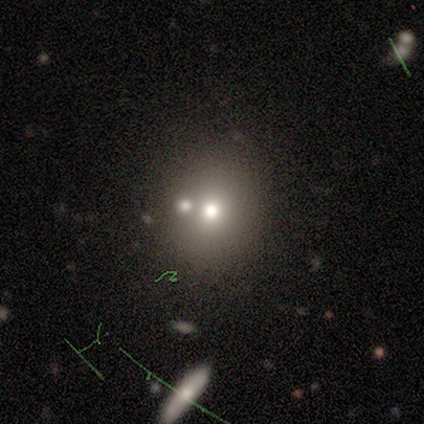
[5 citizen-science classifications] A smooth galaxy with no disk features (100%) that is round (60%).

Vote fractions:
- Smooth or featured? smooth: 100% / featured or disk: 0% / star or artifact: 0%
- How rounded? round: 60% / in between: 40% / cigar-shaped: 0%
- Merging? none: 100% / minor disturbance: 0% / major disturbance: 0% / merger: 0%